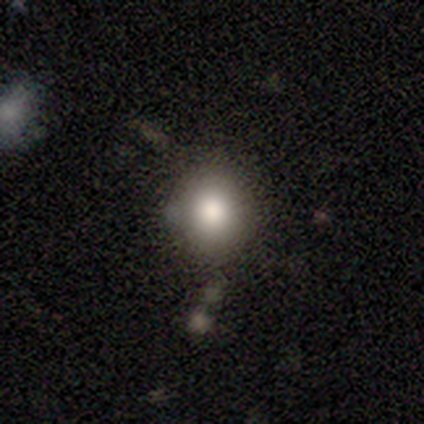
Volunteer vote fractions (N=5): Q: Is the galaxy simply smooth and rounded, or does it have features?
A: smooth — 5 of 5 (100%).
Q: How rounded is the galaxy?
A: round — 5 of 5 (100%).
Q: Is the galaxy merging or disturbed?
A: none — 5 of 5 (100%).